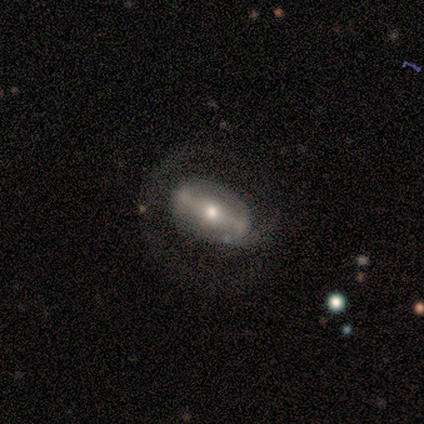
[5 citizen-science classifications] Volunteers were most divided on "spiral winding" (2-way tie): tight: 50%, medium: 50%, loose: 0%. More confident: bar — strong (100%); spiral arm count — 1 (100%); smooth or featured — featured or disk (80%); merging — none (80%); edge-on disk — no (75%); spiral arms — yes (67%); bulge size — moderate (67%).